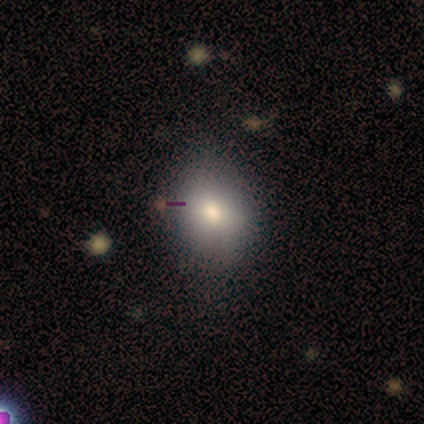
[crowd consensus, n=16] Smooth or featured? smooth (81%)
How rounded? round (62%)
Merging? none (80%)